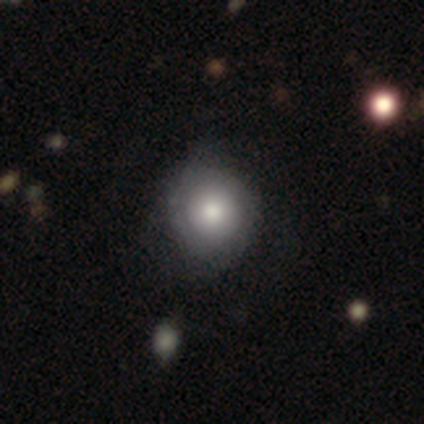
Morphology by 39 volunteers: smooth 59%, featured or disk 36%, star or artifact 5%. Down the decision tree: how rounded — round (96%); merging — none (51%).